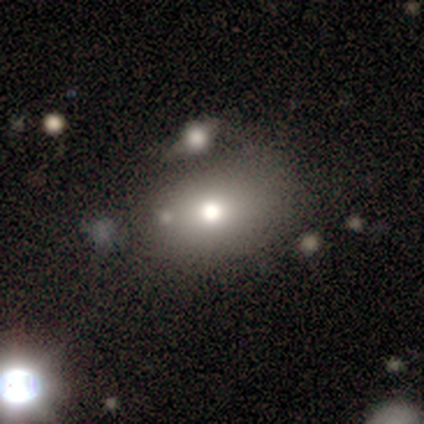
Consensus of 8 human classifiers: This is likely a smooth galaxy (62%). How rounded: clearly in between (80%). Merging: possibly merger (50%).